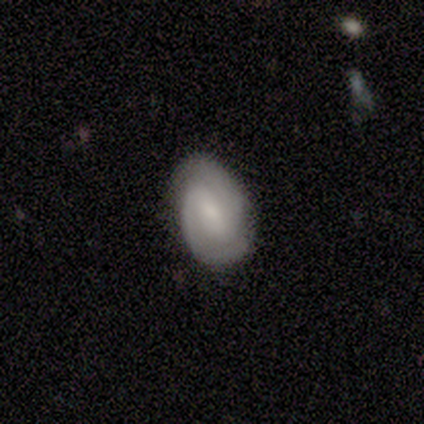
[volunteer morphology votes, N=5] Overall: featured or disk (80%). Edge-on disk: no (100%). Bar: weak (75%). Spiral arms: yes (100%). Spiral arm count: 2 (100%). Spiral winding: tight (50%; medium 25%). Bulge size: small (75%). Merging: none (80%).